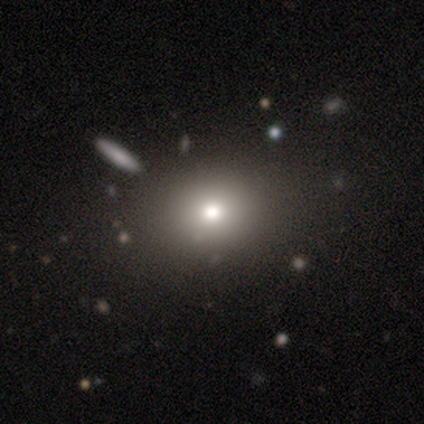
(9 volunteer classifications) A smooth galaxy with no disk features (67%) that is round (67%). Merging: none (100%).